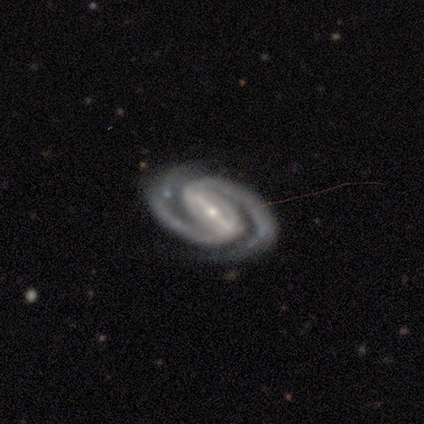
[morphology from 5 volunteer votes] Smooth or featured? featured or disk (100%)
Edge-on disk? no (100%)
Bar? strong (80%)
Spiral arms? yes (100%)
Spiral winding? tight (80%)
Spiral arm count? 2 (100%)
Bulge size? small (80%)
Merging? none (100%)